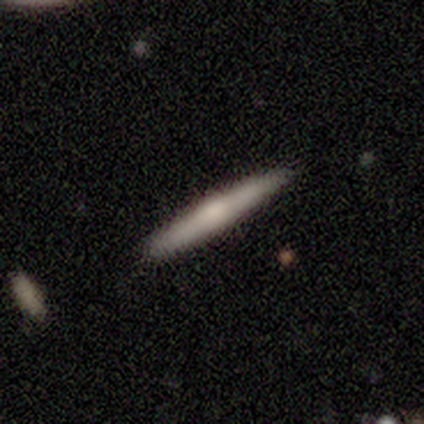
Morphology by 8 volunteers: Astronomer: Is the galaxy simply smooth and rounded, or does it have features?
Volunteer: smooth — 50% (runner-up: featured or disk, 38%).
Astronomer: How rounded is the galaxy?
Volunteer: cigar-shaped — 100%.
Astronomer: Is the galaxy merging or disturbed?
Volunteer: none — 100%.